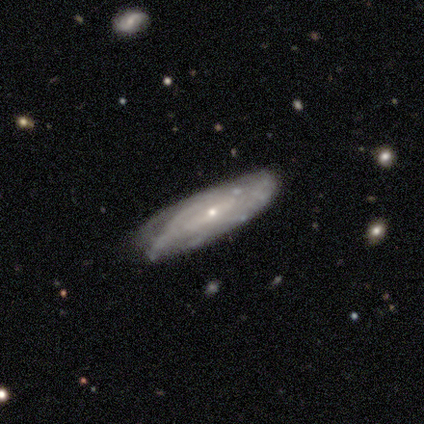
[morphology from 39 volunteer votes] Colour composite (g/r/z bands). It shows a featured or disk galaxy (77%) with a weak bar (45%, tied with no), tight (74%) spiral arms (86%) and a small central bulge (77%). Merging: none (72%).